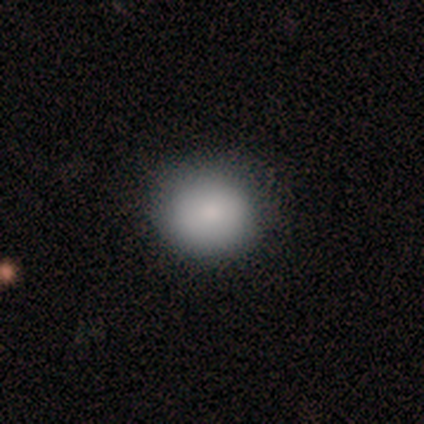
Volunteers were most divided on "how rounded" (2-way tie): round: 50%, in between: 50%, cigar-shaped: 0%. More confident: smooth or featured — smooth (100%); merging — none (100%).